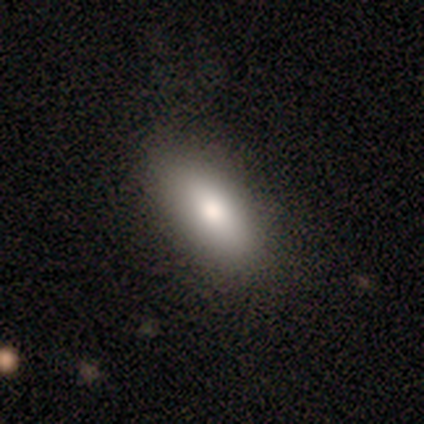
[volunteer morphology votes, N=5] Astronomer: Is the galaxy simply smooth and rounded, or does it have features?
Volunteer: smooth — 80%.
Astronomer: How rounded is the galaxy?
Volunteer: in between — 75%.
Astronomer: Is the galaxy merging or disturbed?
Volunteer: none — 100%.